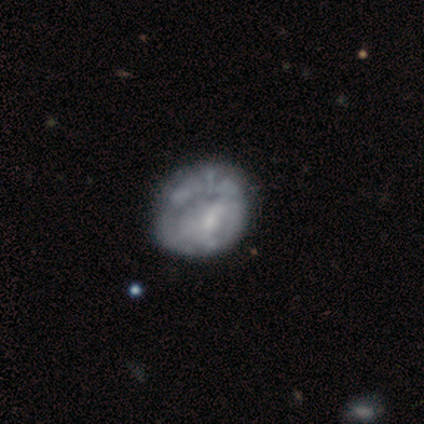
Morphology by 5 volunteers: Smooth or featured?
  - featured or disk: 80% *
  - smooth: 20%
  - star or artifact: 0%
Edge-on disk?
  - no: 100% *
  - yes: 0%
Bar?
  - no: 75% *
  - weak: 25%
  - strong: 0%
Spiral arms?
  - yes: 50% * (tied)
  - no: 50% * (tied)
Spiral winding?
  - tight: 50% * (tied)
  - medium: 50% * (tied)
  - loose: 0%
Spiral arm count?
  - 1: 50% * (tied)
  - can't tell: 50% * (tied)
  - 2: 0%
  - 3: 0%
  - 4: 0%
  - more than 4: 0%
Bulge size?
  - none: 75% *
  - moderate: 25%
  - dominant: 0%
  - large: 0%
  - small: 0%
Merging?
  - minor disturbance: 40% *
  - none: 20%
  - major disturbance: 20%
  - merger: 20%